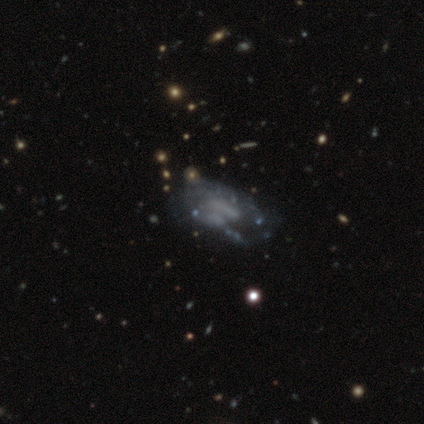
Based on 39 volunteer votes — This is clearly a featured or disk galaxy (85%). It is clearly not viewed edge-on (97%). Bar: likely no (66%). Spiral arm pattern: likely no (69%). Central bulge: likely none (78%). Merging: marginally none (34%).